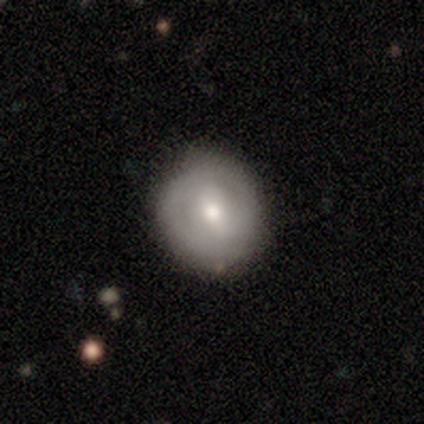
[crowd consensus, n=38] Overall: smooth (47%; featured or disk 37%). How rounded: round (83%). Merging: none (81%).